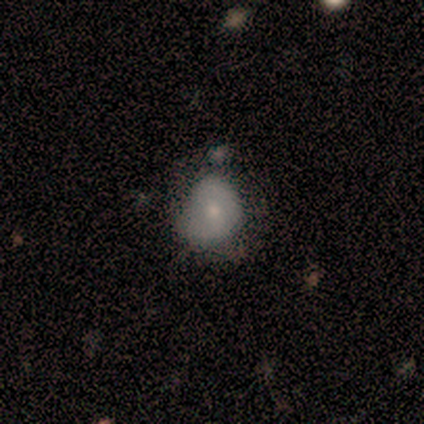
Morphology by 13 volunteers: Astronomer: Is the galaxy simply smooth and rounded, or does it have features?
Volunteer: smooth — 54% (runner-up: featured or disk, 31%).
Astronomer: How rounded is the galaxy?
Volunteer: round — 57% (runner-up: in between, 43%).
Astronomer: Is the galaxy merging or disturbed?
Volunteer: minor disturbance — 64%.